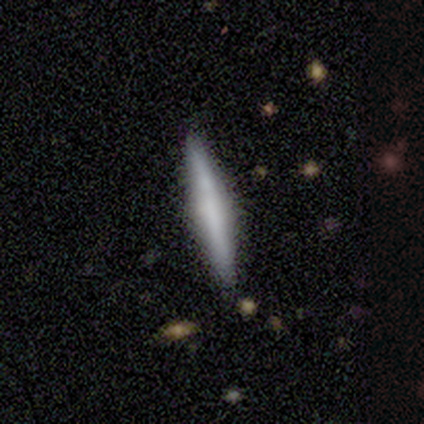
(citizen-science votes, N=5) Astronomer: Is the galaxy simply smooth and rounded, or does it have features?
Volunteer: smooth — 60% (runner-up: featured or disk, 40%).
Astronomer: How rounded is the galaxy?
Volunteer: cigar-shaped — 100%.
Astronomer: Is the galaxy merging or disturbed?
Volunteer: none — 100%.